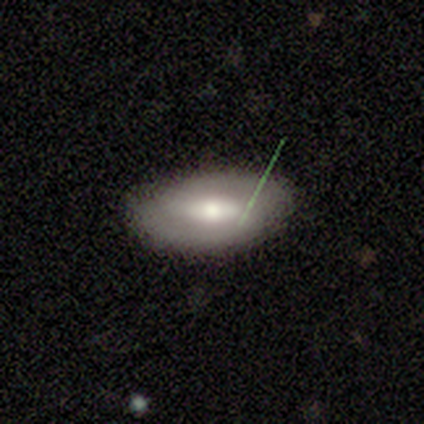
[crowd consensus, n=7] This appears to be a smooth galaxy with no disk features (43%, tied with featured or disk) that is in between round and cigar-shaped (100%). Merging: none (100%).